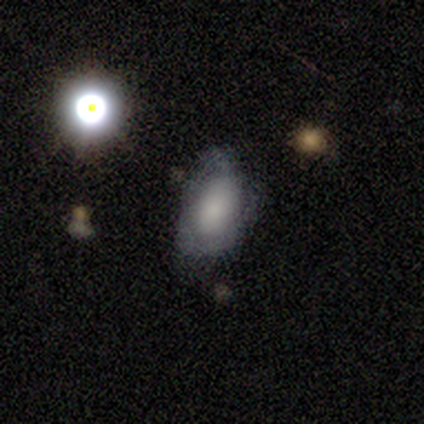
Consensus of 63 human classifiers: A smooth galaxy with no disk features (46%) that is in between round and cigar-shaped (93%).

Vote fractions:
- Smooth or featured? smooth: 46% / featured or disk: 41% / star or artifact: 13%
- How rounded? in between: 93% / round: 7% / cigar-shaped: 0%
- Merging? none: 49% / minor disturbance: 38% / major disturbance: 11% / merger: 2%